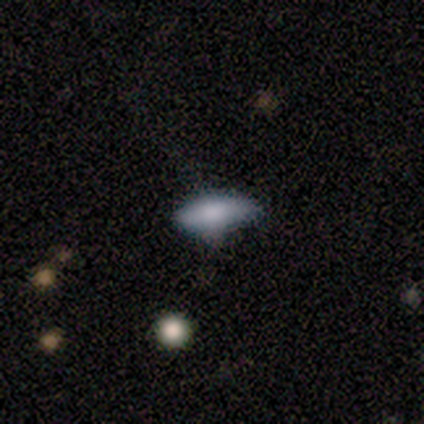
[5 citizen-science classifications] smooth-or-featured: smooth: 100% | featured or disk: 0% | star or artifact: 0%
  how-rounded: cigar-shaped: 60% | in between: 40% | round: 0%
  merging: minor disturbance: 80% | none: 20% | major disturbance: 0% | merger: 0%